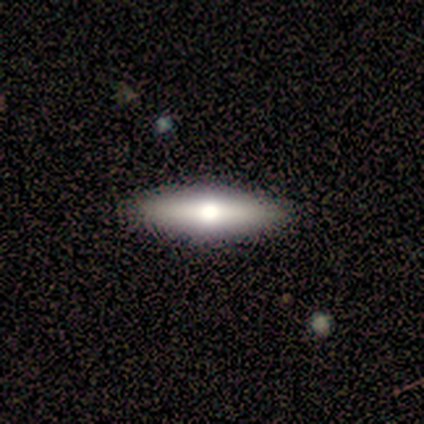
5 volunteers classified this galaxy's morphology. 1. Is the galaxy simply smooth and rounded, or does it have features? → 80% smooth, 20% featured or disk, 0% star or artifact.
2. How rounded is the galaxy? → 50% in between (tied), 50% cigar-shaped (tied), 0% round.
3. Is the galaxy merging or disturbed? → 80% none, 20% minor disturbance, 0% major disturbance, 0% merger.